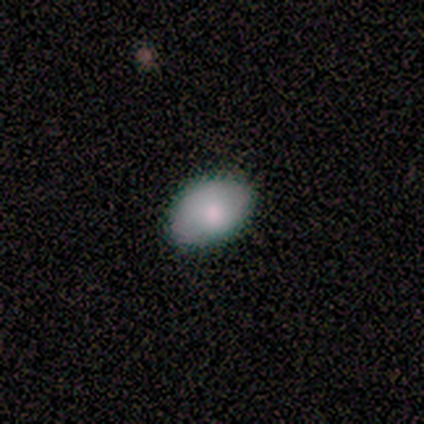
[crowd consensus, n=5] This appears to be a smooth galaxy with no disk features (80%) that is in between round and cigar-shaped (100%). Merging: none (80%).